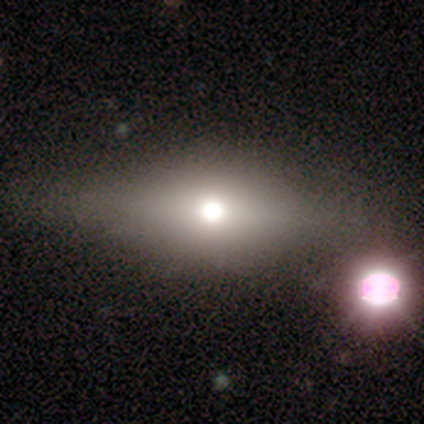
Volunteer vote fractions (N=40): Q: Smooth or featured?
A: smooth (42%); tied with: featured or disk (42%)
Q: How rounded?
A: in between (76%); runner-up: round (18%)
Q: Merging?
A: none (53%); runner-up: minor disturbance (12%)